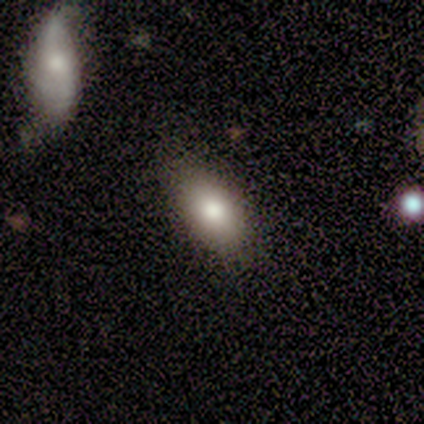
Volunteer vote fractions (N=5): Smooth or featured?
  - smooth: 80% *
  - star or artifact: 20%
  - featured or disk: 0%
How rounded?
  - in between: 100% *
  - round: 0%
  - cigar-shaped: 0%
Merging?
  - none: 100% *
  - minor disturbance: 0%
  - major disturbance: 0%
  - merger: 0%